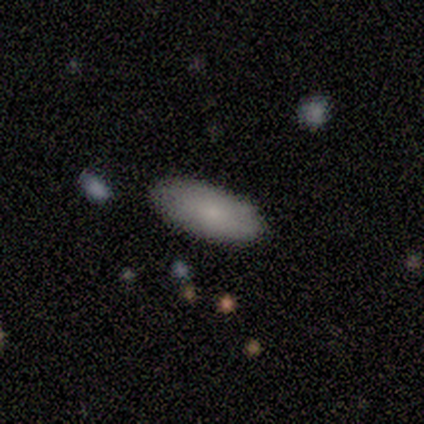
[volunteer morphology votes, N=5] Q: Smooth or featured?
A: smooth (100%)
Q: How rounded?
A: in between (100%)
Q: Merging?
A: none (40%); tied with: minor disturbance (40%)